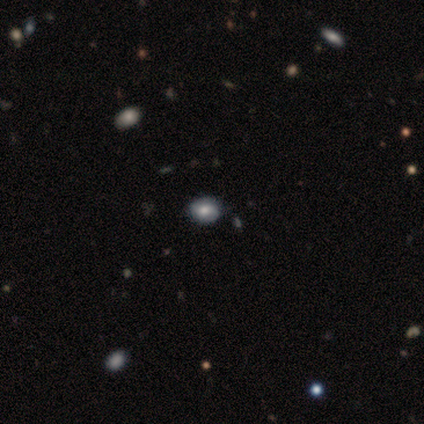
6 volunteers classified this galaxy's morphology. Smooth or featured: smooth — 33% (tied with featured or disk — 33%; star or artifact — 33%)
How rounded: in between — 100%
Merging: none — 100%